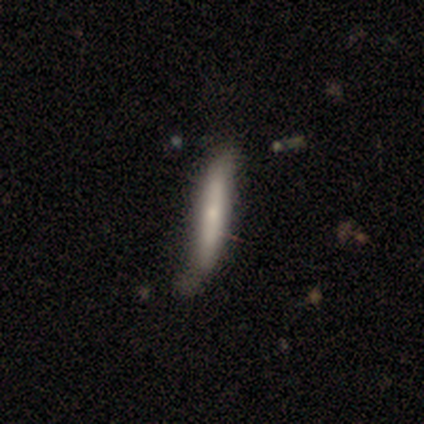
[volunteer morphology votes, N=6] smooth-or-featured: smooth: 67% | featured or disk: 33% | star or artifact: 0%
  how-rounded: cigar-shaped: 100% | round: 0% | in between: 0%
  merging: none: 67% | minor disturbance: 33% | major disturbance: 0% | merger: 0%